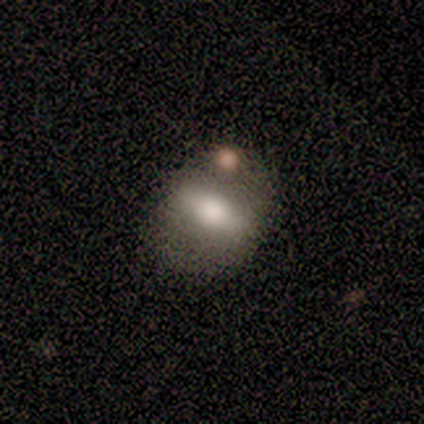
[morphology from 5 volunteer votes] Volunteers were most divided on "bar" (2-way tie): strong: 50%, weak: 50%, no: 0%; "bulge size" (2-way tie): large: 50%, moderate: 50%, dominant: 0%, small: 0%, none: 0%. Remaining: spiral arms — no (100%); edge-on disk — no (67%); smooth or featured — featured or disk (60%); merging — merger (40%).